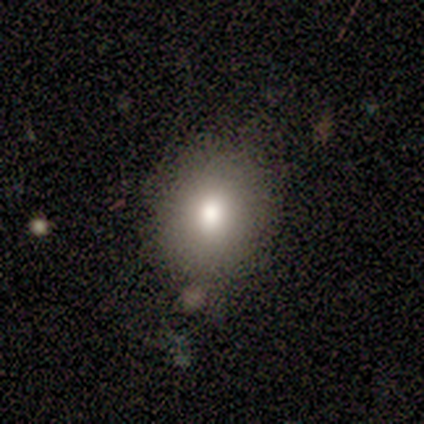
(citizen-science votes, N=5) Smooth or featured?
  - smooth: 100% *
  - featured or disk: 0%
  - star or artifact: 0%
How rounded?
  - round: 80% *
  - in between: 20%
  - cigar-shaped: 0%
Merging?
  - none: 80% *
  - minor disturbance: 20%
  - major disturbance: 0%
  - merger: 0%